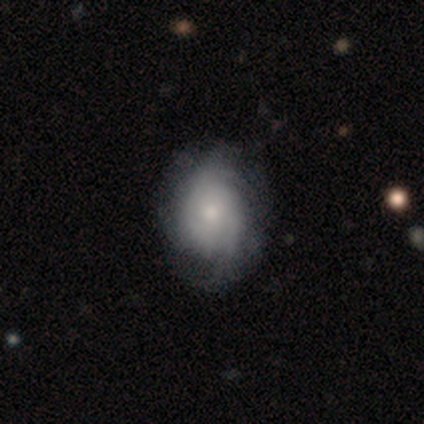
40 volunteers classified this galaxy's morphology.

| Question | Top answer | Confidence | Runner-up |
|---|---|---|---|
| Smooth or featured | featured or disk | 68% | smooth (32%) |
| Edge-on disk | no | 96% | yes (4%) |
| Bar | no | 85% | weak (15%) |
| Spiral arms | yes | 81% | no (19%) |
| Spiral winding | tight | 48% | medium (43%) |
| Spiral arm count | can't tell | 62% | 3 (19%) |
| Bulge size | moderate | 50% | small (38%) |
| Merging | none | 38% | minor disturbance (30%) |